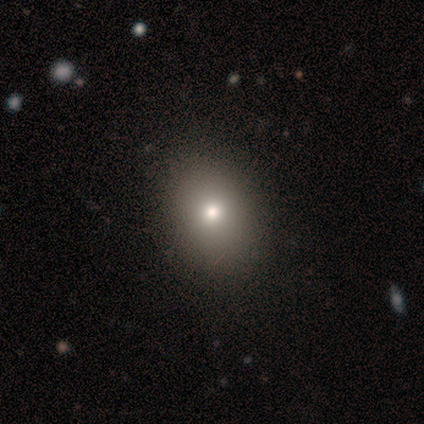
Smooth or featured: smooth — 100%
How rounded: in between — 57% (round — 43%)
Merging: none — 86% (minor disturbance — 14%)